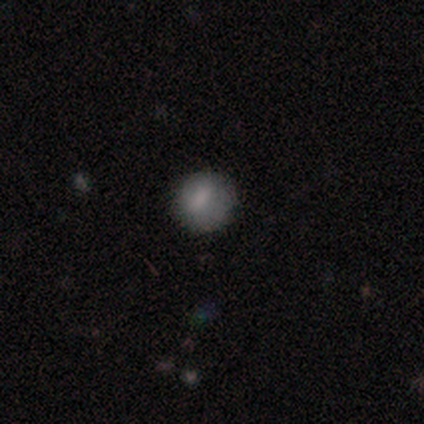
smooth 60%, featured or disk 20%, star or artifact 20%. Down the decision tree: how rounded — round (100%); merging — none (100%).